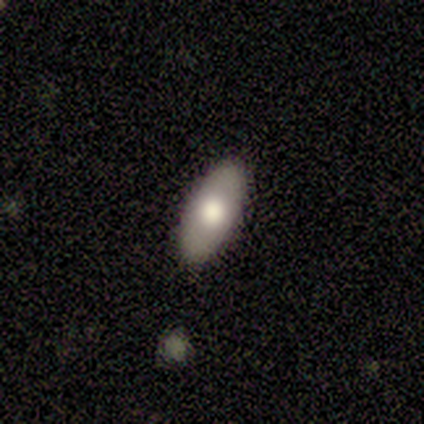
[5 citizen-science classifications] Volunteers were most divided on "smooth or featured": smooth: 80%, featured or disk: 20%, star or artifact: 0%. More confident: how rounded — in between (100%); merging — none (100%).